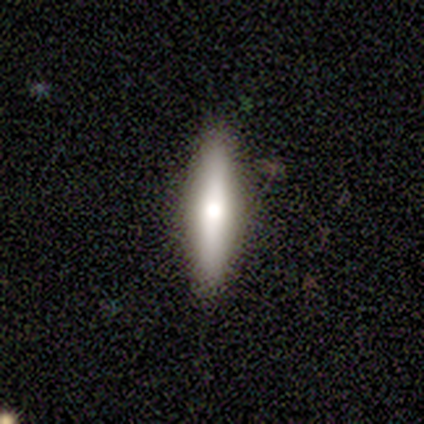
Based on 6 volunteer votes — Overall: smooth (50%; featured or disk 33%). How rounded: cigar-shaped (100%). Merging: none (80%).